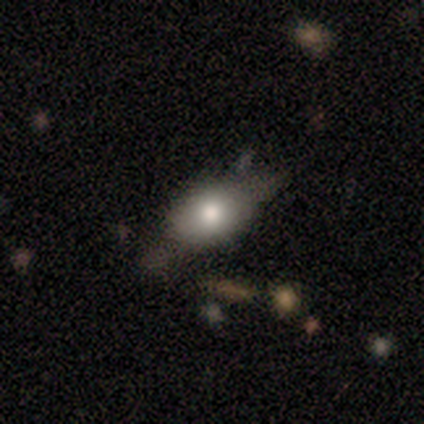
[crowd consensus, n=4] A smooth galaxy with no disk features (75%) that is in between round and cigar-shaped (100%).

Vote fractions:
- Smooth or featured? smooth: 75% / featured or disk: 25% / star or artifact: 0%
- How rounded? in between: 100% / round: 0% / cigar-shaped: 0%
- Merging? none: 50% (tied) / minor disturbance: 50% (tied) / major disturbance: 0% / merger: 0%